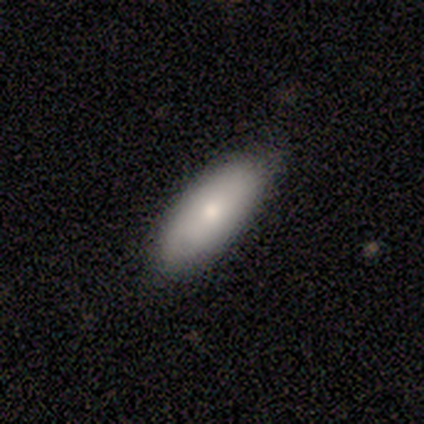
This is clearly a smooth galaxy (80%). How rounded: clearly in between (100%). Merging: clearly none (100%).